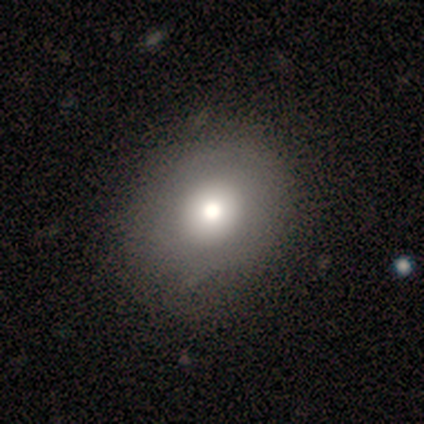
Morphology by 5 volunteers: Smooth or featured? smooth (60%)
How rounded? in between (67%)
Merging? none (100%)